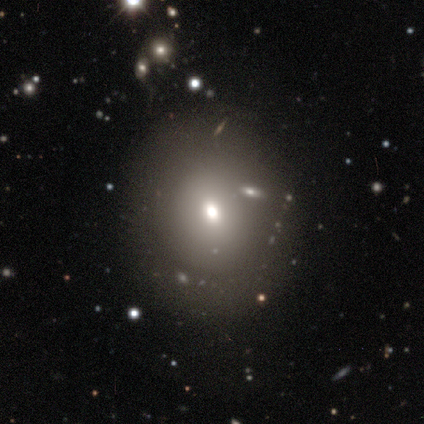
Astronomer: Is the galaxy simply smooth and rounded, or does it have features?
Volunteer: smooth — 65%.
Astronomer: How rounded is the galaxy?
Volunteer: round — 54% (runner-up: in between, 44%).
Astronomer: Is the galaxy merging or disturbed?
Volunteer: none — 36%.